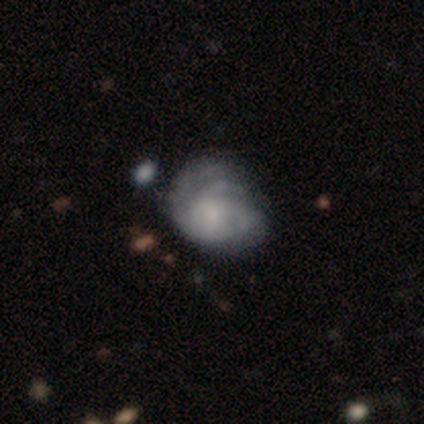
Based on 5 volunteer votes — Smooth or featured? featured or disk (60%)
Edge-on disk? no (100%)
Bar? no (67%)
Spiral arms? no (67%)
Bulge size? moderate (33%, tied with small and none)
Merging? minor disturbance (50%)